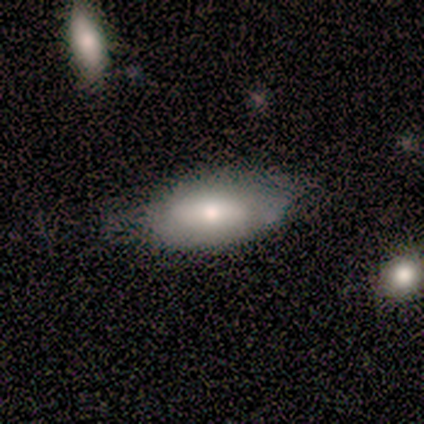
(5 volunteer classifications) This appears to be a smooth galaxy with no disk features (60%) that is in between round and cigar-shaped (100%). Merging: none (60%).